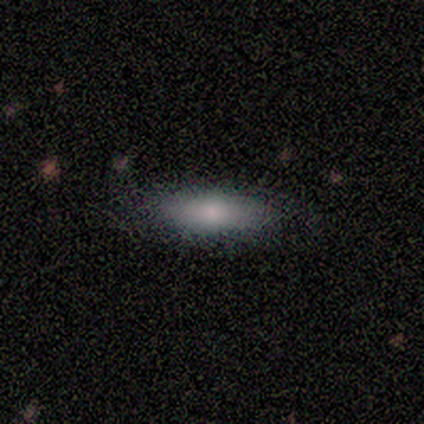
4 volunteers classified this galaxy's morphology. Smooth or featured? 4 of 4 (100%) said smooth. How rounded? 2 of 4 (50%, tied with cigar-shaped) said in between. Merging? 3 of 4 (75%) said none.